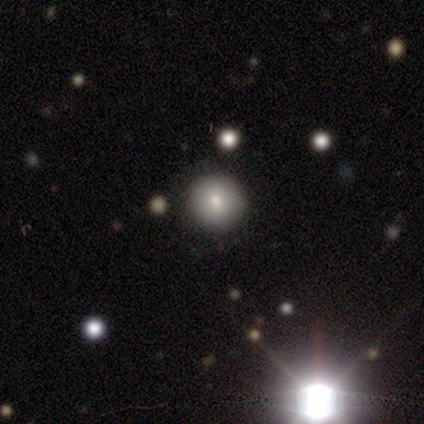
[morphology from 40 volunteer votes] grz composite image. It shows a smooth galaxy with no disk features (65%) that is round (88%). Merging: none (83%).